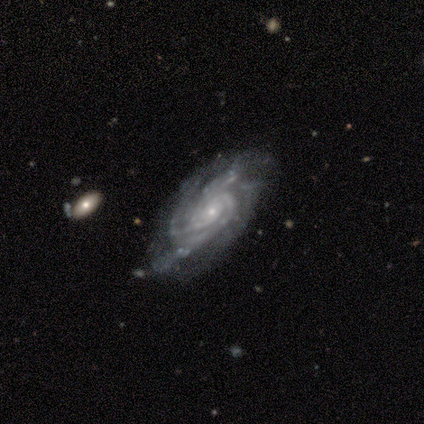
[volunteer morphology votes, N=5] Overall: featured or disk (100%). Edge-on disk: no (100%). Bar: no (80%). Spiral arms: yes (80%). Spiral arm count: 3 (50%, tied with 4). Spiral winding: tight (50%, tied with medium). Bulge size: small (100%). Merging: none (60%; minor disturbance 20%).